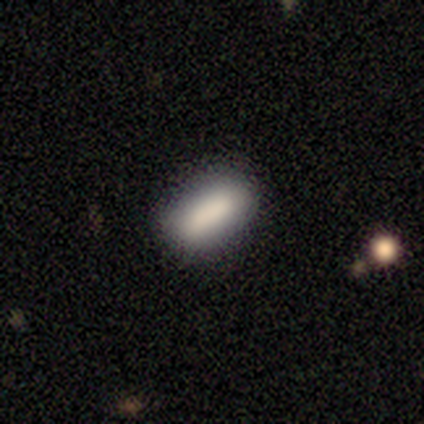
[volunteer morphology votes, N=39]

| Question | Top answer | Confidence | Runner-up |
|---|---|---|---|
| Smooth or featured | smooth | 74% | featured or disk (15%) |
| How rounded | in between | 69% | cigar-shaped (31%) |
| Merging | none | 74% | minor disturbance (20%) |